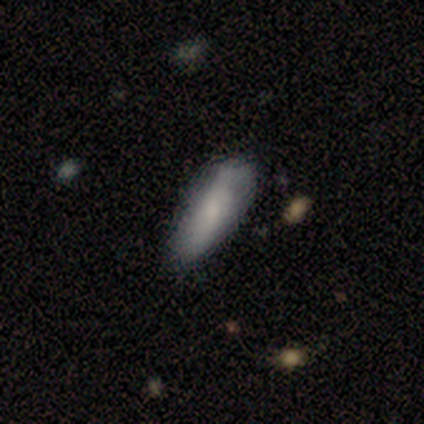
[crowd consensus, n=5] Overall: smooth (60%; featured or disk 20%). How rounded: in between (100%). Merging: none (100%).